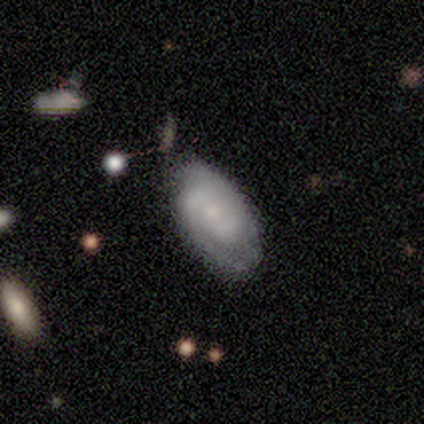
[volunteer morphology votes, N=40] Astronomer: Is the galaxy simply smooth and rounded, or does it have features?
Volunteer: featured or disk — 85%.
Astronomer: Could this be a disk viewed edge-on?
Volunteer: no — 94%.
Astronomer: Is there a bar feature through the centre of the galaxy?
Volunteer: no — 62%.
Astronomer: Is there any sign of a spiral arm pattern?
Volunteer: yes — 97%.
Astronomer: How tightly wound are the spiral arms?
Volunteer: tight — 48% (runner-up: medium, 39%).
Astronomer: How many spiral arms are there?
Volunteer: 2 — 68%.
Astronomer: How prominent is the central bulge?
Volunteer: small — 69%.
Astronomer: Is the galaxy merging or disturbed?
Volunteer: none — 68%.